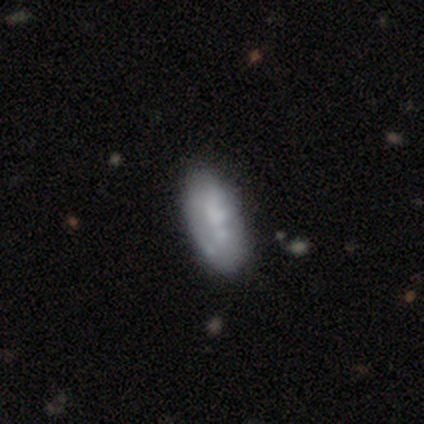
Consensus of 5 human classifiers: smooth 40% (tied), featured or disk 40% (tied), star or artifact 20%. Down the decision tree: how rounded — in between (50%, tied with cigar-shaped); merging — none (75%).